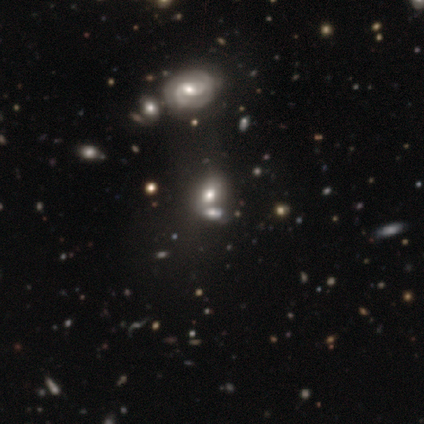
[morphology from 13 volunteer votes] Volunteers were most divided on "bar" (2-way tie): weak: 50%, no: 50%, strong: 0%; "spiral winding" (2-way tie): tight: 50%, medium: 50%, loose: 0%. Remaining: edge-on disk — no (100%); spiral arm count — 2 (75%); spiral arms — yes (67%); bulge size — moderate (67%); merging — none (50%); smooth or featured — featured or disk (46%).